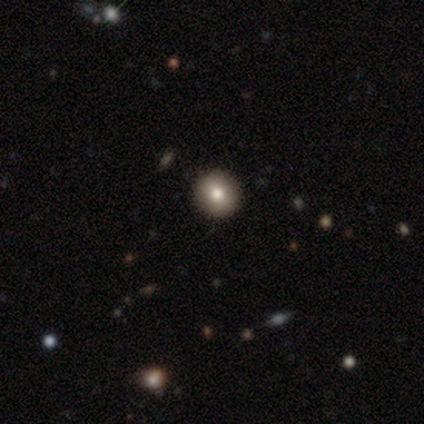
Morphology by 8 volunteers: This appears to be a smooth galaxy with no disk features (62%) that is round (100%). Merging: none (100%).